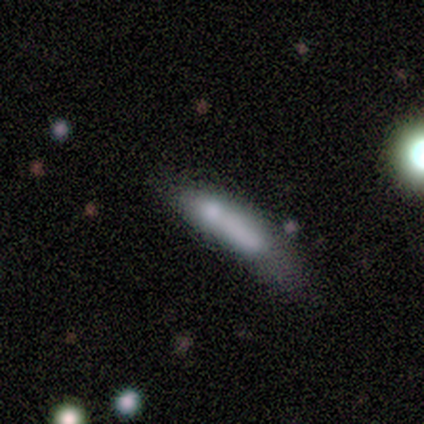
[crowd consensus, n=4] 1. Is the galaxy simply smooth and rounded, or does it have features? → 75% smooth, 25% featured or disk, 0% star or artifact.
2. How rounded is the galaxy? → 67% cigar-shaped, 33% in between, 0% round.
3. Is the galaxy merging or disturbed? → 75% minor disturbance, 25% major disturbance, 0% none, 0% merger.